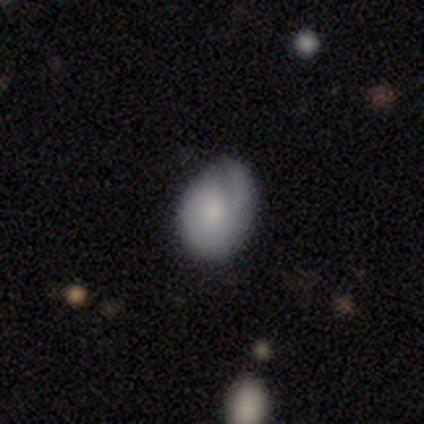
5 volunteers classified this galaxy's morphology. Smooth or featured: smooth — 60% (featured or disk — 40%)
How rounded: in between — 67% (round — 33%)
Merging: none — 60% (minor disturbance — 40%)